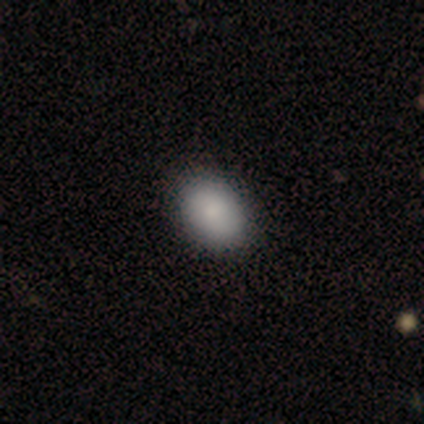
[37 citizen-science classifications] Smooth or featured: smooth — 89% (star or artifact — 8%)
How rounded: in between — 67% (round — 33%)
Merging: none — 82% (minor disturbance — 12%)